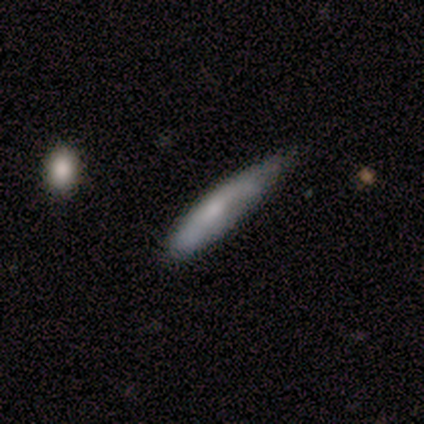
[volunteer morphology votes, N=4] This appears to be a smooth galaxy with no disk features (75%) that is cigar-shaped (100%). Merging: none (50%, tied with minor disturbance).